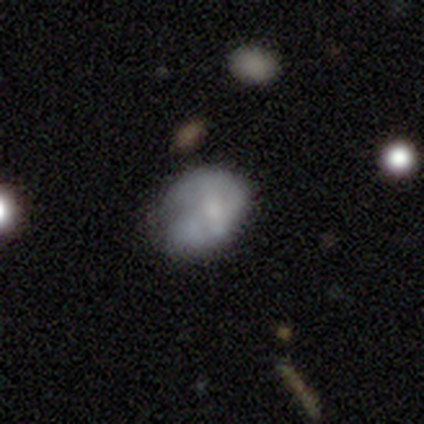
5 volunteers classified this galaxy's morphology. This appears to be a featured or disk galaxy (60%) with a weak bar (67%), medium (50%, tied with loose) spiral arms (67%) and a moderate central bulge (33%, tied with small and none). Merging: none (60%).